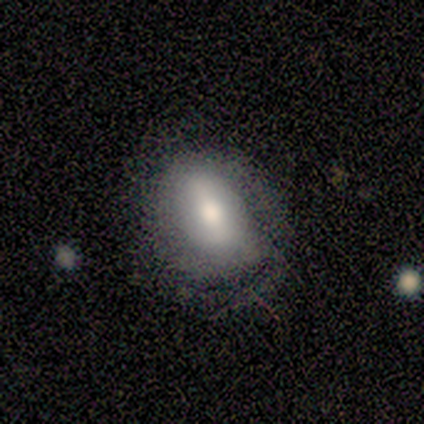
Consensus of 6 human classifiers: Morphology: type=featured or disk (67%); edge-on=no (100%); bar=strong (75%); spiral arms=yes (100%); winding=medium (75%); arm count=1 (50%); bulge=moderate (100%); merging=minor disturbance (50%).